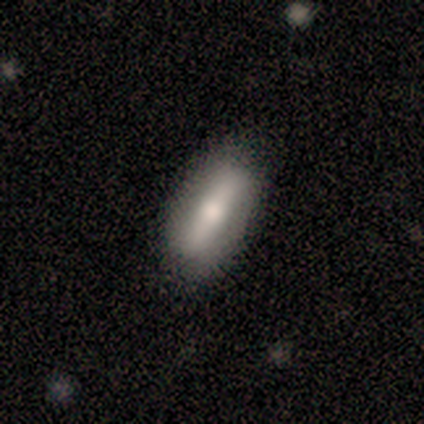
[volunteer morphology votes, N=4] Volunteers were most divided on "how rounded": in between: 67%, cigar-shaped: 33%, round: 0%. More confident: smooth or featured — smooth (75%); merging — none (67%).